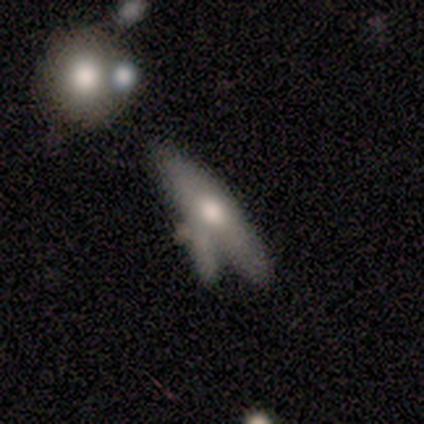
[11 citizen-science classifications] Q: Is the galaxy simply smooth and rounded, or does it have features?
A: featured or disk — 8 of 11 (73%).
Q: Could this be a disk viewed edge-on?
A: no — 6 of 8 (75%).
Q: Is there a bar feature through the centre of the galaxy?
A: no — 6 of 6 (100%).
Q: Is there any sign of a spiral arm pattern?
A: no — 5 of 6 (83%).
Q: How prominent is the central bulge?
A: large — 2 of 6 (33%, tied with moderate).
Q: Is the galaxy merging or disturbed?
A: merger — 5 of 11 (45%).